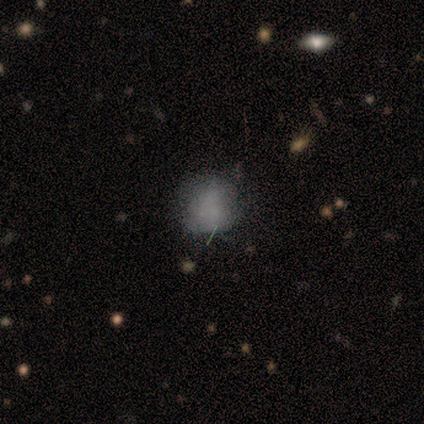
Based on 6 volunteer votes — Morphology: type=smooth (67%); roundness=round (50%, tied with in between); merging=none (50%).